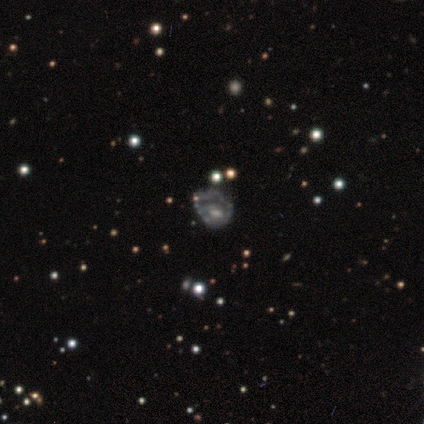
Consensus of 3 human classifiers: A smooth galaxy with no disk features (33%, tied with featured or disk and star or artifact) that is round (100%). Merging: none (50%, tied with minor disturbance).